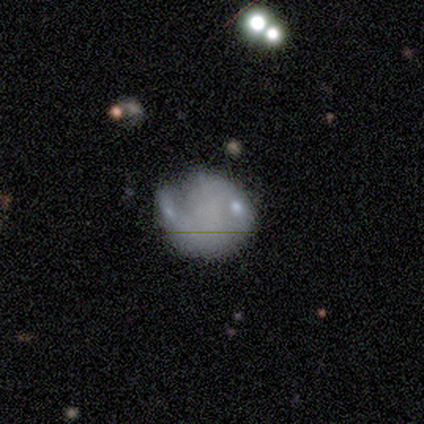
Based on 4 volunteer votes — smooth_or_featured: smooth (p=0.50) [tied with: featured or disk p=0.50]
how_rounded: round (p=1.00)
merging: minor disturbance (p=0.50) [alt: none p=0.25]